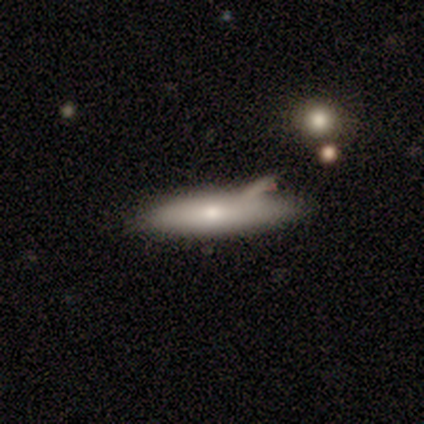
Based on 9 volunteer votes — Overall: smooth (78%). How rounded: cigar-shaped (71%). Merging: none (67%; minor disturbance 33%).